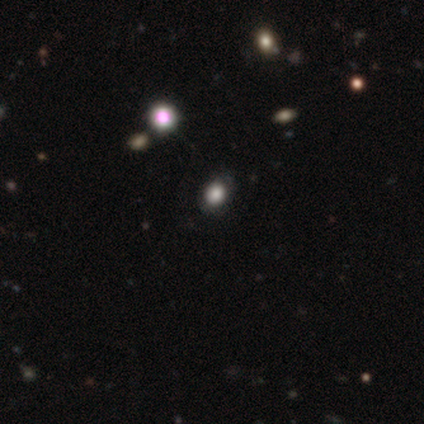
smooth-or-featured: smooth: 60% | featured or disk: 40% | star or artifact: 0%
  how-rounded: in between: 67% | round: 33% | cigar-shaped: 0%
  merging: none: 100% | minor disturbance: 0% | major disturbance: 0% | merger: 0%